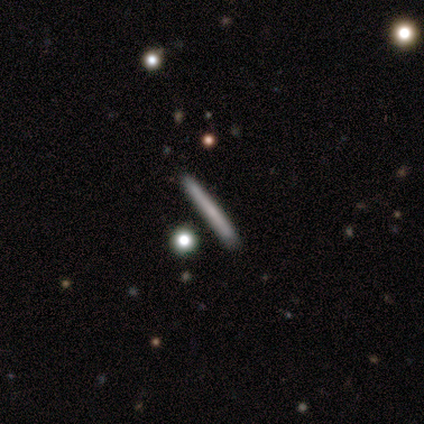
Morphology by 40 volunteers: Smooth or featured? 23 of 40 (57%) said smooth. How rounded? 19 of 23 (83%) said cigar-shaped. Merging? 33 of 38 (87%) said none.